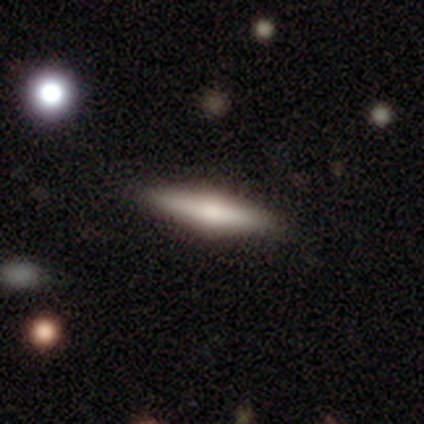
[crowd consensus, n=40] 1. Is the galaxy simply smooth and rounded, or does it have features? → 60% featured or disk, 38% smooth, 2% star or artifact.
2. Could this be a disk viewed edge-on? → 100% yes, 0% no.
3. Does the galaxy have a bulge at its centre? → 92% rounded, 8% boxy, 0% none.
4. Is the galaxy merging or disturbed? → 62% none, 5% minor disturbance, 3% major disturbance, 0% merger.